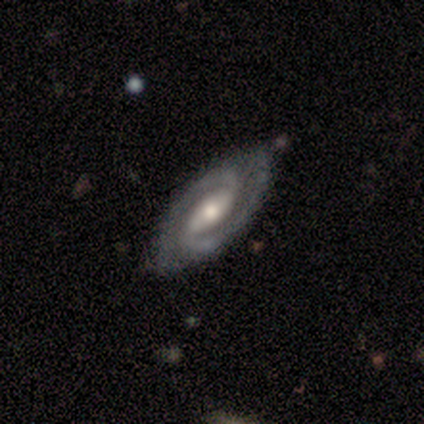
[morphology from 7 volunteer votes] Smooth or featured: featured or disk — 86% (smooth — 14%)
Edge-on disk: no — 100%
Bar: weak — 50% (strong — 33%)
Spiral arms: yes — 100%
Spiral winding: medium — 67% (tight — 33%)
Spiral arm count: 2 — 83% (can't tell — 17%)
Bulge size: moderate — 83% (small — 17%)
Merging: none — 43% (tied with minor disturbance — 43%)